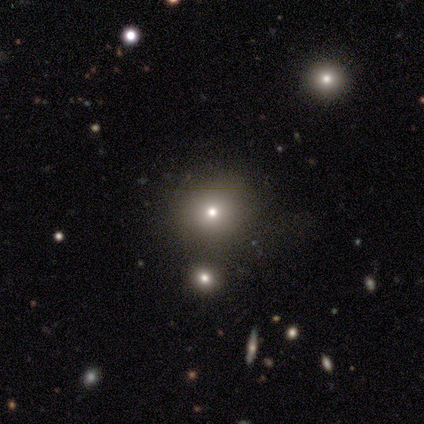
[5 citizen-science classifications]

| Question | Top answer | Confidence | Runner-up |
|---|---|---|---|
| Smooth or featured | smooth | 100% | — |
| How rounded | round | 80% | in between (20%) |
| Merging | none | 60% | minor disturbance (20%) |